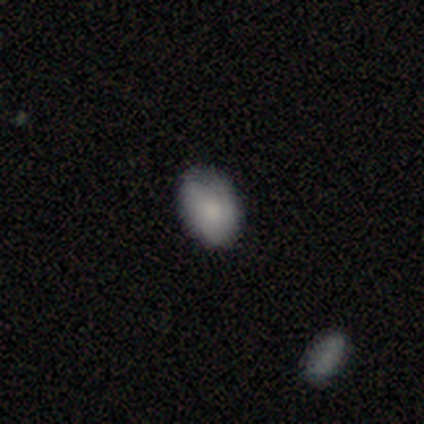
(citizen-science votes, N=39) Morphology: type=smooth (82%); roundness=in between (94%); merging=none (81%).